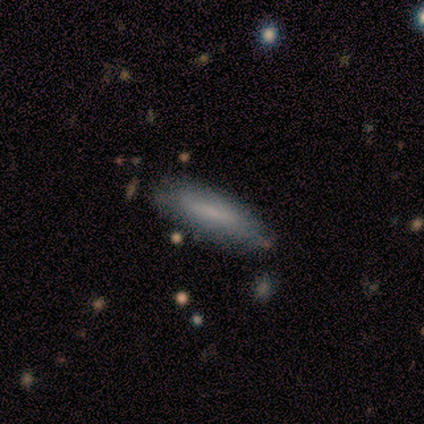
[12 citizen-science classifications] Volunteers were most divided on "how rounded" (2-way tie): in between: 50%, cigar-shaped: 50%, round: 0%. More confident: smooth or featured — smooth (83%); merging — none (75%).